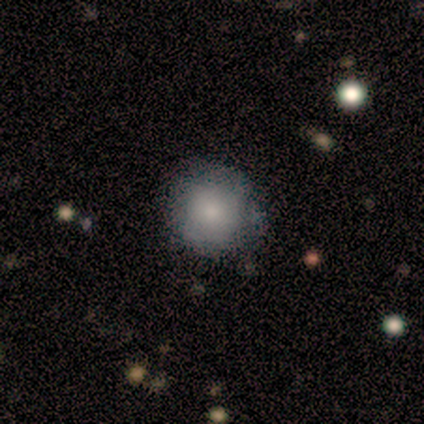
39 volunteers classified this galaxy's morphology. Smooth or featured? 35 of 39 (90%) said smooth. How rounded? 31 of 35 (89%) said round. Merging? 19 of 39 (49%) said none.